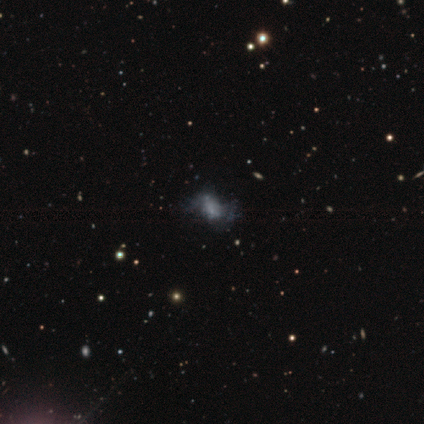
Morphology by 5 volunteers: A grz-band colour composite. It shows a smooth galaxy with no disk features (60%) that is in between round and cigar-shaped (100%). Merging: none (33%, tied with minor disturbance and major disturbance).